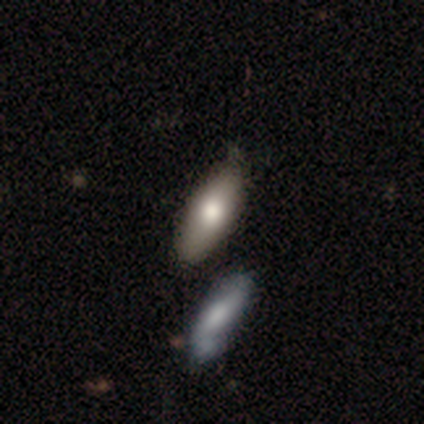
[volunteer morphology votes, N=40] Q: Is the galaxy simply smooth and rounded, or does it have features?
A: smooth — 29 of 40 (72%).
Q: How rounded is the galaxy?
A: in between — 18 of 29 (62%).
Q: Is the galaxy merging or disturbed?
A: none — 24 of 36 (67%).